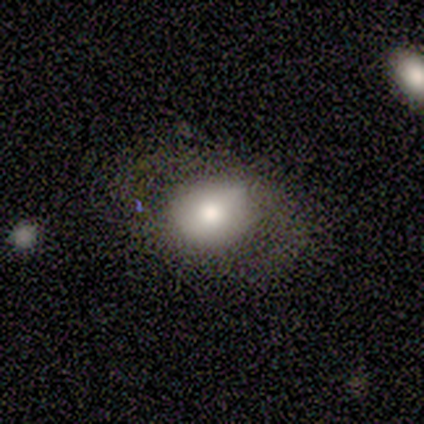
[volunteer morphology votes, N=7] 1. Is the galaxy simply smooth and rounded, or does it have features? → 71% smooth, 29% featured or disk, 0% star or artifact.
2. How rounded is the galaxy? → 80% in between, 20% round, 0% cigar-shaped.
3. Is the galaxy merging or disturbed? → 71% none, 29% minor disturbance, 0% major disturbance, 0% merger.